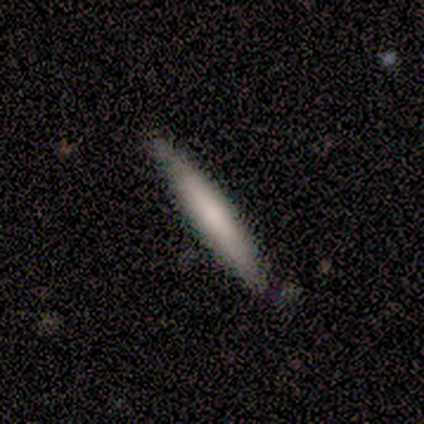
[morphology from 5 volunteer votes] Smooth or featured? smooth (80%)
How rounded? cigar-shaped (100%)
Merging? none (80%)